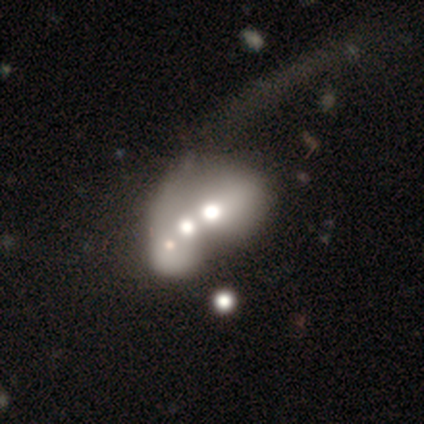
Morphology: type=featured or disk (50%, tied with star or artifact); edge-on=no (100%); bar=no (100%); spiral arms=no (100%); bulge=large (50%, tied with moderate); merging=major disturbance (50%, tied with merger).